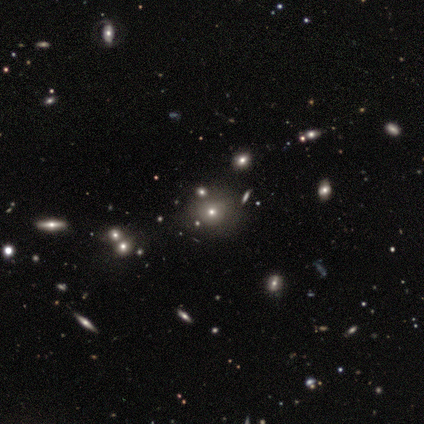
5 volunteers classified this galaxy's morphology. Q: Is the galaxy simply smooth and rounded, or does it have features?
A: star or artifact — 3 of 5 (60%).